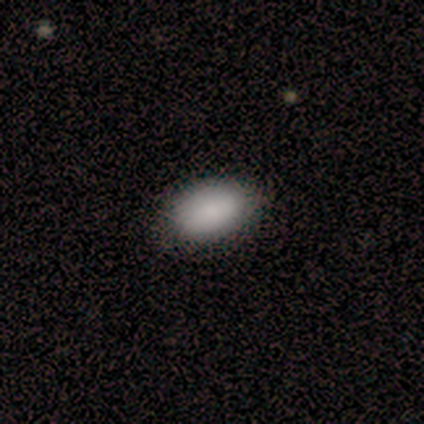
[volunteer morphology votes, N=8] smooth_or_featured: smooth (p=0.88) [alt: star or artifact p=0.12]
how_rounded: in between (p=0.86) [alt: round p=0.14]
merging: none (p=1.00)